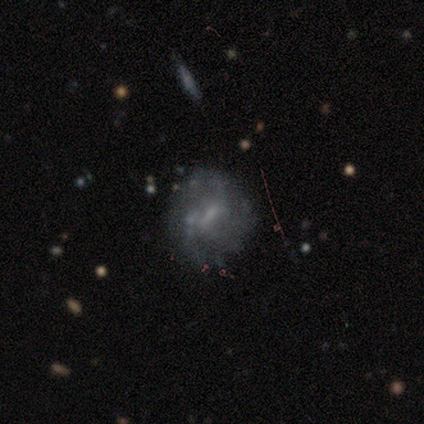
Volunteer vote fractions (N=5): Smooth or featured?
  - featured or disk: 80% *
  - smooth: 20%
  - star or artifact: 0%
Edge-on disk?
  - no: 100% *
  - yes: 0%
Bar?
  - weak: 50% * (tied)
  - no: 50% * (tied)
  - strong: 0%
Spiral arms?
  - yes: 75% *
  - no: 25%
Spiral winding?
  - tight: 100% *
  - medium: 0%
  - loose: 0%
Spiral arm count?
  - can't tell: 67% *
  - 3: 33%
  - 1: 0%
  - 2: 0%
  - 4: 0%
  - more than 4: 0%
Bulge size?
  - small: 75% *
  - none: 25%
  - dominant: 0%
  - large: 0%
  - moderate: 0%
Merging?
  - none: 80% *
  - minor disturbance: 20%
  - major disturbance: 0%
  - merger: 0%